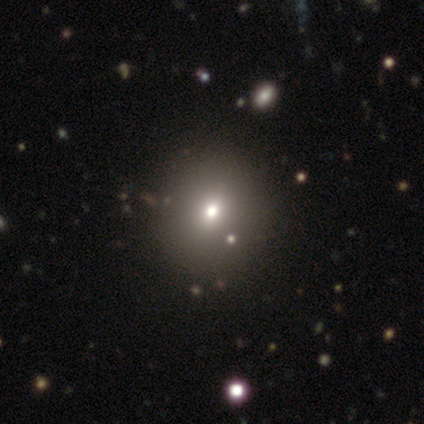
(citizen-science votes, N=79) Volunteers were most divided on "merging": none: 42%, merger: 6%, minor disturbance: 4%, major disturbance: 0%. More confident: how rounded — round (83%); smooth or featured — smooth (75%).